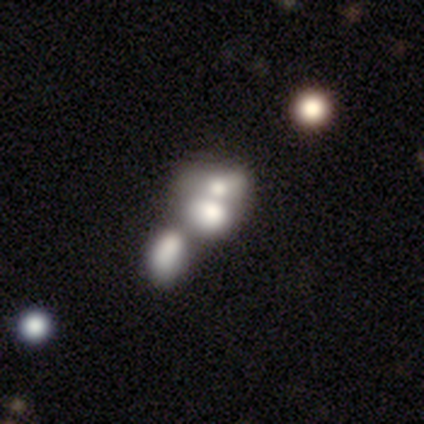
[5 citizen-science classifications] smooth_or_featured: smooth (p=0.80) [alt: featured or disk p=0.20]
how_rounded: round (p=0.75) [alt: in between p=0.25]
merging: merger (p=0.80) [alt: none p=0.20]